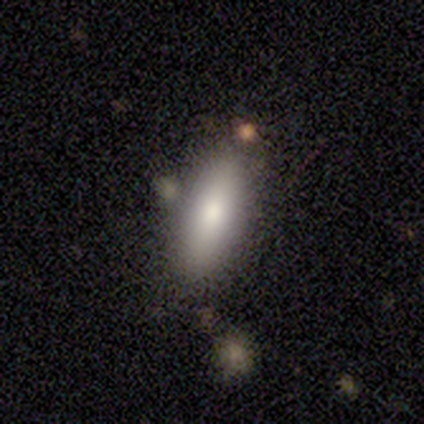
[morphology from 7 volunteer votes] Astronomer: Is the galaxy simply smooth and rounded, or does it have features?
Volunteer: smooth — 71%.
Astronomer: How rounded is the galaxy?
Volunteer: cigar-shaped — 60% (runner-up: in between, 40%).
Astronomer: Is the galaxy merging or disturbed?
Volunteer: none — 86%.